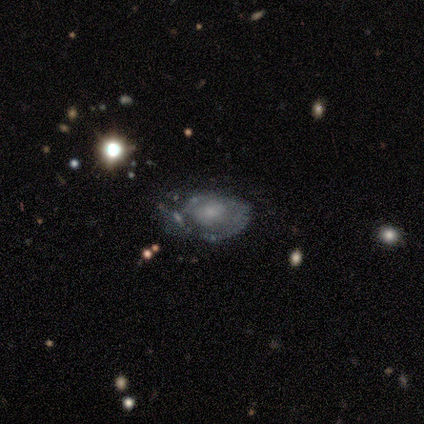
A featured or disk galaxy (100%) with no bar (100%), no spiral arms (80%) and a moderate central bulge (40%, tied with small).

Vote fractions:
- Smooth or featured? featured or disk: 100% / smooth: 0% / star or artifact: 0%
- Edge-on disk? no: 100% / yes: 0%
- Bar? no: 100% / strong: 0% / weak: 0%
- Spiral arms? no: 80% / yes: 20%
- Bulge size? moderate: 40% (tied) / small: 40% (tied) / none: 20% / dominant: 0% / large: 0%
- Merging? none: 100% / minor disturbance: 0% / major disturbance: 0% / merger: 0%